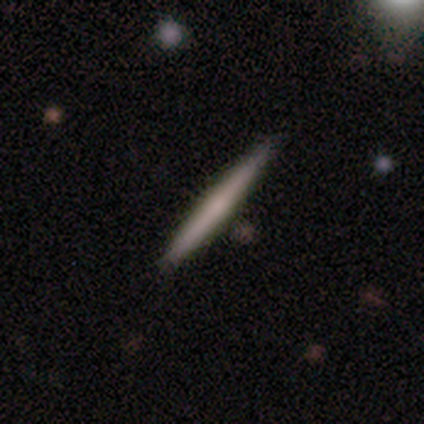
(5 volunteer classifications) smooth 80%, featured or disk 20%, star or artifact 0%. Down the decision tree: how rounded — cigar-shaped (100%); merging — none (100%).